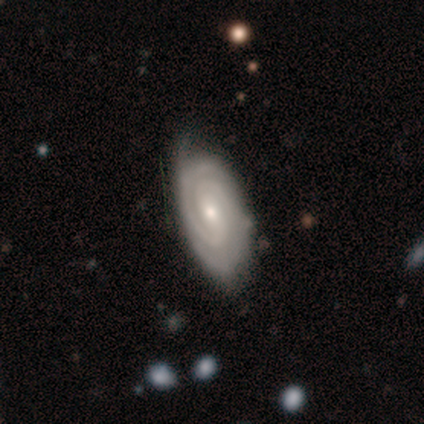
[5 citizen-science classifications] Q: Smooth or featured?
A: featured or disk (100%)
Q: Edge-on disk?
A: no (100%)
Q: Bar?
A: weak (60%); runner-up: strong (20%)
Q: Spiral arms?
A: yes (100%)
Q: Spiral winding?
A: tight (100%)
Q: Spiral arm count?
A: 2 (80%); runner-up: can't tell (20%)
Q: Bulge size?
A: small (100%)
Q: Merging?
A: none (80%); runner-up: major disturbance (20%)